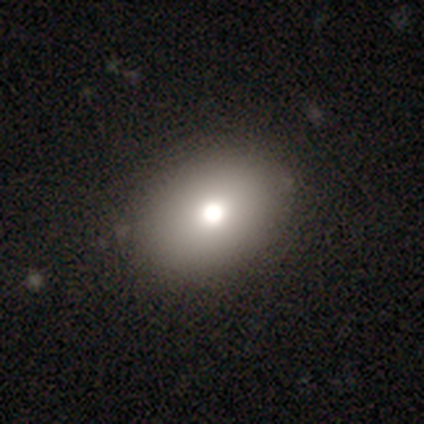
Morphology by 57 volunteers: smooth_or_featured: smooth (p=0.79) [alt: featured or disk p=0.11]
how_rounded: in between (p=0.76) [alt: round p=0.24]
merging: none (p=0.82) [alt: minor disturbance p=0.14]